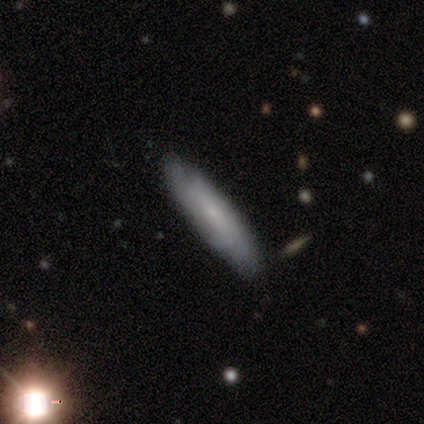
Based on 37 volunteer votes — This appears to be a smooth galaxy with no disk features (59%) that is cigar-shaped (86%). Merging: none (82%).